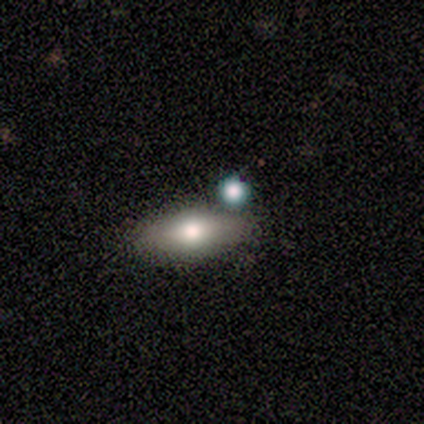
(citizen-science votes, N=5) A smooth galaxy with no disk features (60%) that is in between round and cigar-shaped (100%). Merging: none (80%).